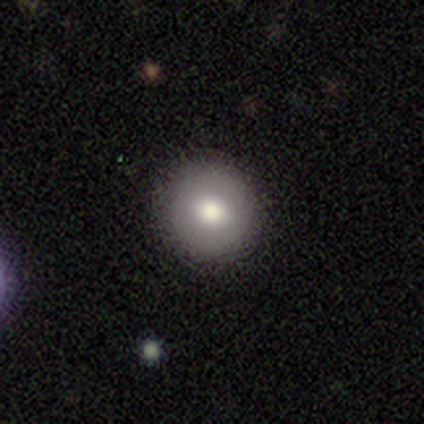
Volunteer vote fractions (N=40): Q: Smooth or featured?
A: smooth (78%); runner-up: featured or disk (15%)
Q: How rounded?
A: round (100%)
Q: Merging?
A: none (86%); runner-up: minor disturbance (14%)